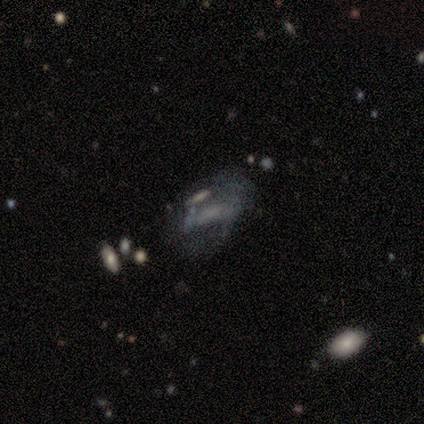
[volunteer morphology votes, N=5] Smooth or featured? smooth (80%)
How rounded? in between (75%)
Merging? major disturbance (60%)